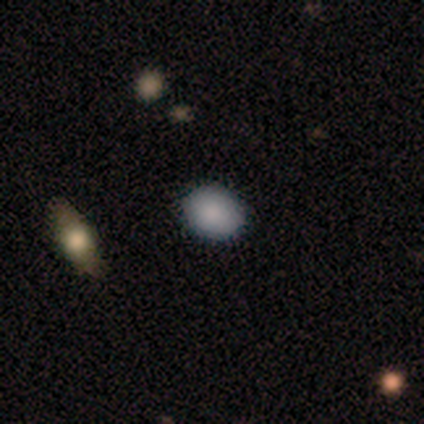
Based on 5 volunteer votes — Overall: smooth (80%). How rounded: in between (75%). Merging: none (100%).